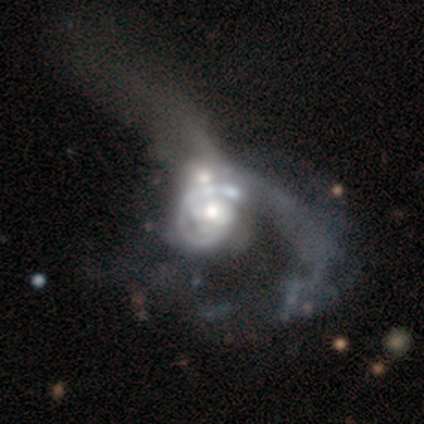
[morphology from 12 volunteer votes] featured or disk 92%, smooth 8%, star or artifact 0%. Down the decision tree: edge-on disk — no (100%); bar — no (82%); spiral arms — yes (82%); spiral arm count — 2 (44%, tied with can't tell); spiral winding — tight (67%); bulge size — moderate (64%); merging — major disturbance (58%).